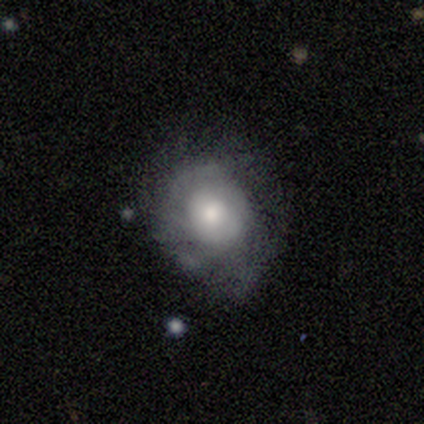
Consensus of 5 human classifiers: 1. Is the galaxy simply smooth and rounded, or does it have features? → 80% featured or disk, 20% smooth, 0% star or artifact.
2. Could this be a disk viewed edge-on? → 100% no, 0% yes.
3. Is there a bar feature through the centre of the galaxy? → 50% weak (tied), 50% no (tied), 0% strong.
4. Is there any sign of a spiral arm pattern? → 100% yes, 0% no.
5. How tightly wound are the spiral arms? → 50% medium, 25% tight, 25% loose.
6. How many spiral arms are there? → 75% can't tell, 25% 2, 0% 1, 0% 3, 0% 4, 0% more than 4.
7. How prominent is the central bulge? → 75% moderate, 25% large, 0% dominant, 0% small, 0% none.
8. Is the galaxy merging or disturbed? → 60% none, 40% major disturbance, 0% minor disturbance, 0% merger.